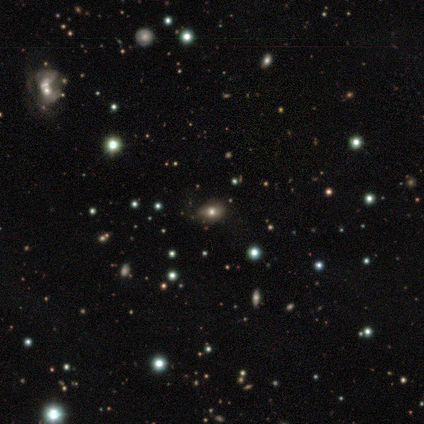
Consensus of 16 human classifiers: Smooth or featured? smooth (62%)
How rounded? in between (90%)
Merging? none (82%)